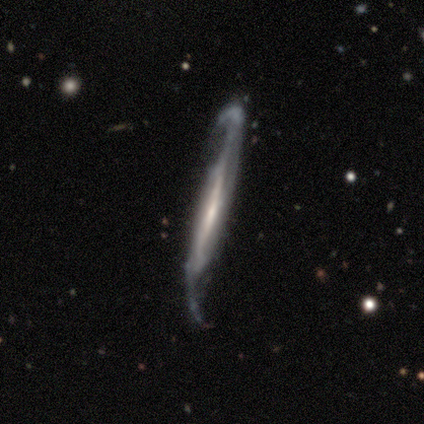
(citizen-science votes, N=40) Smooth or featured? featured or disk (92%)
Edge-on disk? no (59%)
Bar? strong (36%, tied with weak)
Spiral arms? yes (95%)
Spiral winding? loose (62%)
Spiral arm count? 2 (76%)
Bulge size? small (50%)
Merging? none (74%)